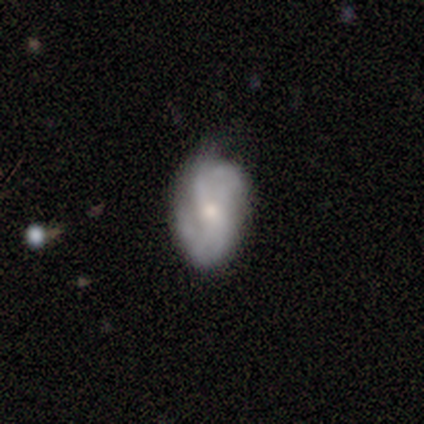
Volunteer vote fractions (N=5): featured or disk 60%, smooth 40%, star or artifact 0%. Down the decision tree: edge-on disk — no (100%); bar — no (67%); spiral arms — yes (100%); spiral arm count — 2 (100%); spiral winding — medium (67%); bulge size — small (100%); merging — minor disturbance (60%).